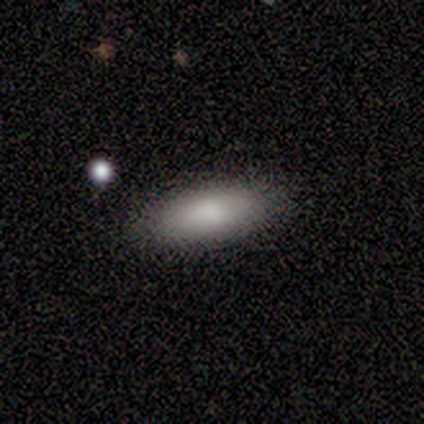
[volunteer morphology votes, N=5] Volunteers were most divided on "how rounded": in between: 60%, cigar-shaped: 40%, round: 0%. More confident: smooth or featured — smooth (100%); merging — none (100%).